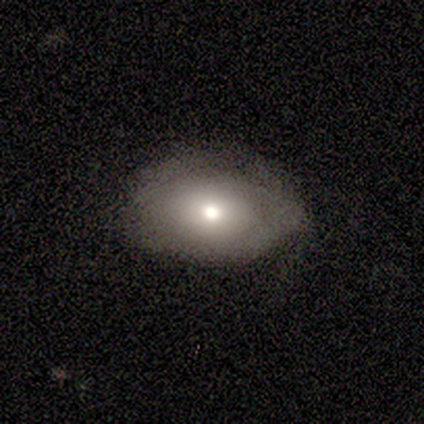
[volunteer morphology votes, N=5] A smooth galaxy with no disk features (60%) that is in between round and cigar-shaped (100%).

Vote fractions:
- Smooth or featured? smooth: 60% / featured or disk: 40% / star or artifact: 0%
- How rounded? in between: 100% / round: 0% / cigar-shaped: 0%
- Merging? none: 60% / major disturbance: 40% / minor disturbance: 0% / merger: 0%